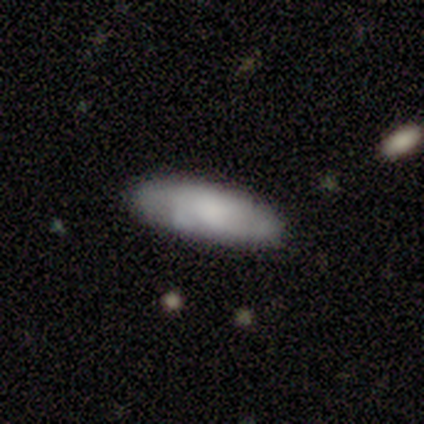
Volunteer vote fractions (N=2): Volunteers were most divided on "how rounded" (2-way tie): in between: 50%, cigar-shaped: 50%, round: 0%; "merging" (2-way tie): none: 50%, minor disturbance: 50%, major disturbance: 0%, merger: 0%. More confident: smooth or featured — smooth (100%).